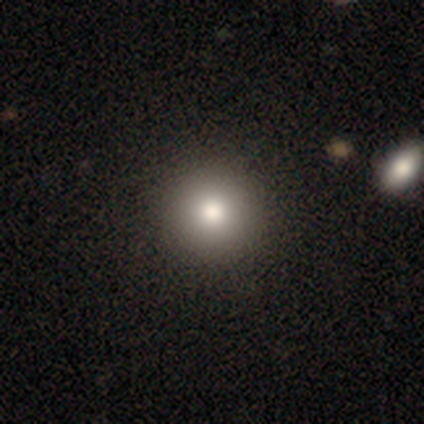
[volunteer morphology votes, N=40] Smooth or featured: smooth — 78% (featured or disk — 15%)
How rounded: round — 97% (in between — 3%)
Merging: none — 65% (merger — 5%)